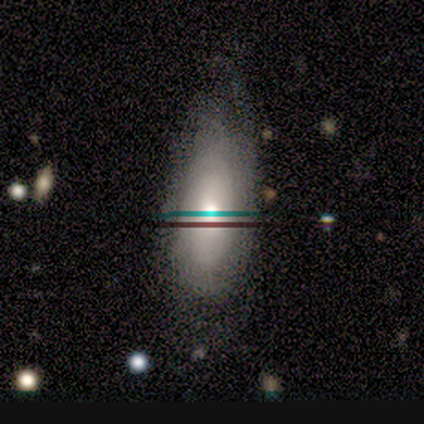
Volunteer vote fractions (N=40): Smooth or featured?
  - featured or disk: 50% *
  - smooth: 38%
  - star or artifact: 12%
Edge-on disk?
  - no: 80% *
  - yes: 20%
Bar?
  - no: 88% *
  - strong: 6%
  - weak: 6%
Spiral arms?
  - yes: 50% * (tied)
  - no: 50% * (tied)
Spiral winding?
  - tight: 50% *
  - medium: 25%
  - loose: 25%
Spiral arm count?
  - can't tell: 88% *
  - 3: 12%
  - 1: 0%
  - 2: 0%
  - 4: 0%
  - more than 4: 0%
Bulge size?
  - moderate: 62% *
  - small: 19%
  - large: 12%
  - none: 6%
  - dominant: 0%
Merging?
  - none: 43% *
  - minor disturbance: 37%
  - major disturbance: 14%
  - merger: 6%